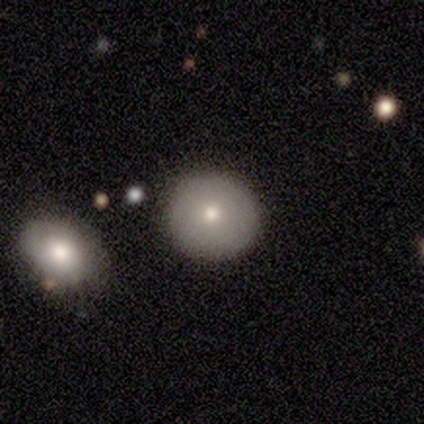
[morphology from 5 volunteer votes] type=smooth (100%); roundness=round (60%); merging=none (40%, tied with minor disturbance).